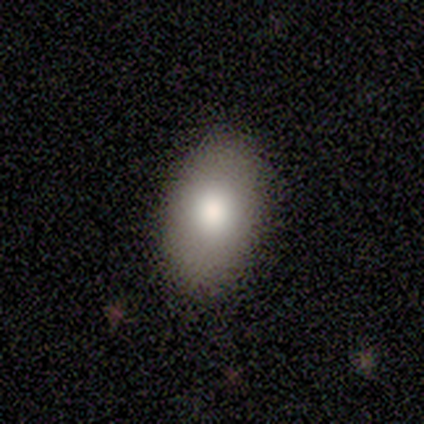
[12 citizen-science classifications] Smooth or featured? 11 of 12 (92%) said smooth. How rounded? 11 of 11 (100%) said in between. Merging? 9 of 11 (82%) said none.